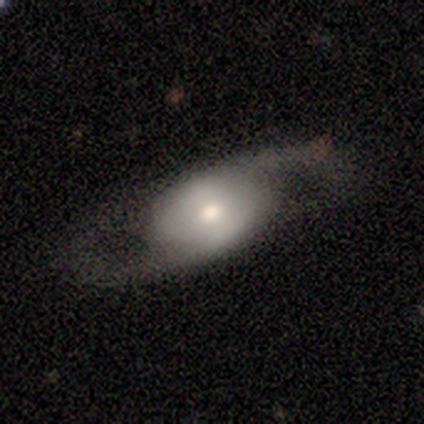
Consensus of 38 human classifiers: Smooth or featured: featured or disk — 71% (smooth — 24%)
Edge-on disk: no — 85% (yes — 15%)
Bar: no — 52% (weak — 26%)
Spiral arms: yes — 83% (no — 17%)
Spiral winding: loose — 79% (medium — 21%)
Spiral arm count: 2 — 89% (1 — 5%)
Bulge size: moderate — 70% (small — 22%)
Merging: none — 64% (major disturbance — 22%)